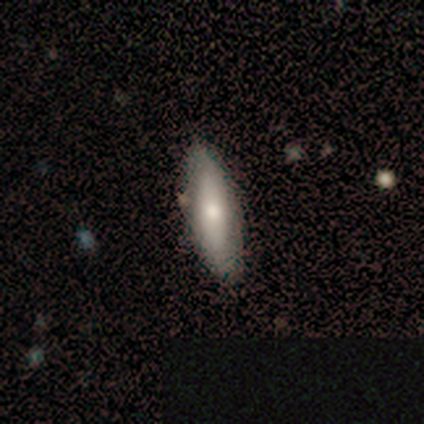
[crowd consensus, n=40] smooth_or_featured: smooth (p=0.50) [alt: featured or disk p=0.45]
how_rounded: cigar-shaped (p=0.55) [alt: in between p=0.40]
merging: none (p=0.84) [alt: minor disturbance p=0.11]